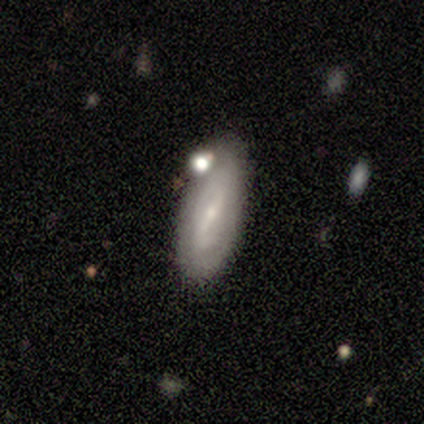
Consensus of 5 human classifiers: Smooth or featured?
  - smooth: 100% *
  - featured or disk: 0%
  - star or artifact: 0%
How rounded?
  - in between: 60% *
  - cigar-shaped: 40%
  - round: 0%
Merging?
  - none: 40% * (tied)
  - merger: 40% * (tied)
  - minor disturbance: 20%
  - major disturbance: 0%